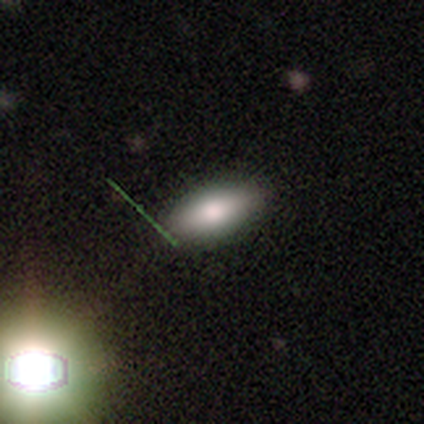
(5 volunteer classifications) Smooth or featured: smooth — 80% (featured or disk — 20%)
How rounded: in between — 100%
Merging: none — 100%